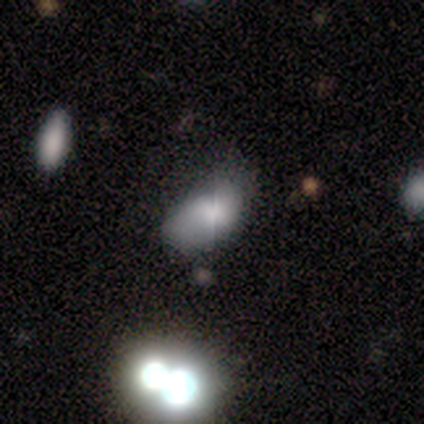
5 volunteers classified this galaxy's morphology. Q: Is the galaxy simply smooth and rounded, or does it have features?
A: smooth — 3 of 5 (60%).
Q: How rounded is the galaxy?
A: in between — 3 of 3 (100%).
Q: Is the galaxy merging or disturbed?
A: minor disturbance — 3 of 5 (60%).